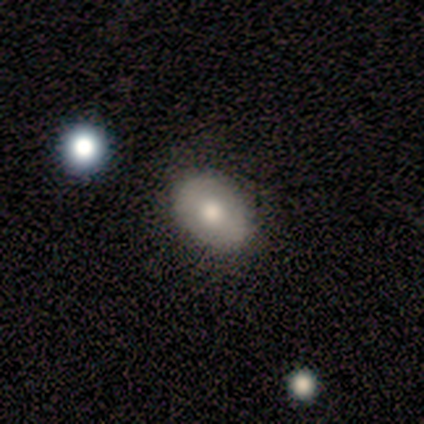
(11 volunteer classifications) Q: Smooth or featured?
A: smooth (82%); runner-up: featured or disk (18%)
Q: How rounded?
A: in between (100%)
Q: Merging?
A: none (91%); runner-up: minor disturbance (9%)